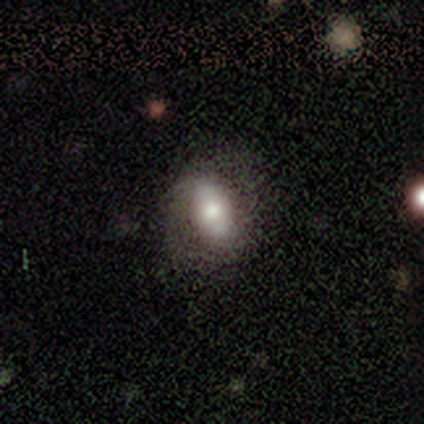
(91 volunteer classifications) Overall: smooth (51%; featured or disk 38%). How rounded: in between (80%). Merging: none (72%).